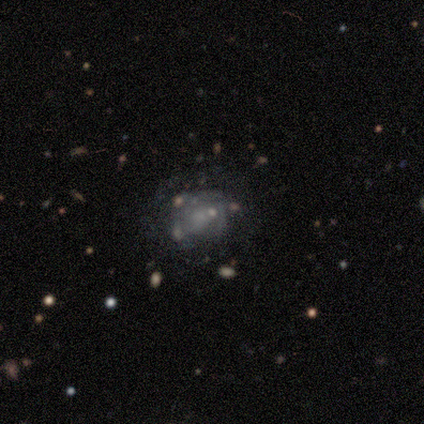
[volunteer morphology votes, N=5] A featured or disk galaxy (60%) with no bar (100%), no spiral arms (67%) and a large central bulge (33%, tied with small and none).

Vote fractions:
- Smooth or featured? featured or disk: 60% / smooth: 20% / star or artifact: 20%
- Edge-on disk? no: 100% / yes: 0%
- Bar? no: 100% / strong: 0% / weak: 0%
- Spiral arms? no: 67% / yes: 33%
- Bulge size? large: 33% (tied) / small: 33% (tied) / none: 33% (tied) / dominant: 0% / moderate: 0%
- Merging? none: 50% (tied) / minor disturbance: 50% (tied) / major disturbance: 0% / merger: 0%